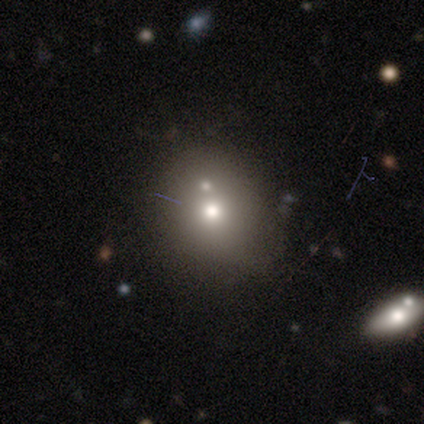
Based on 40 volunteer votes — This appears to be a smooth galaxy with no disk features (75%) that is round (73%). Merging: none (43%).